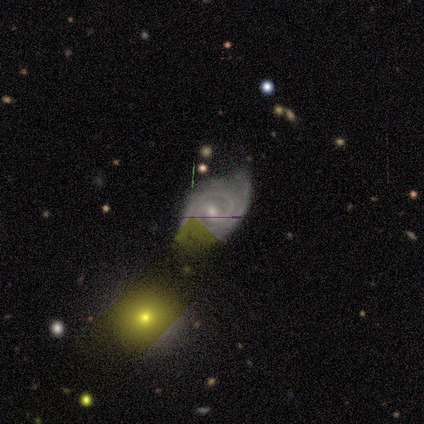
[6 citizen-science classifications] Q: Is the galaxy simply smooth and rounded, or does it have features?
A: featured or disk — 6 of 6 (100%).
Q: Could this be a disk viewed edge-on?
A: no — 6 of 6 (100%).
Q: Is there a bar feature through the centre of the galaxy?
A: no — 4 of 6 (67%).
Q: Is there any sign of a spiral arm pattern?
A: yes — 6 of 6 (100%).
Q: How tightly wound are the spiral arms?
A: tight — 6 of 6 (100%).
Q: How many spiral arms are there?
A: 2 — 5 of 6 (83%).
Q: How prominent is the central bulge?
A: moderate — 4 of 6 (67%).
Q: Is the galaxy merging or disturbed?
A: none — 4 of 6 (67%).